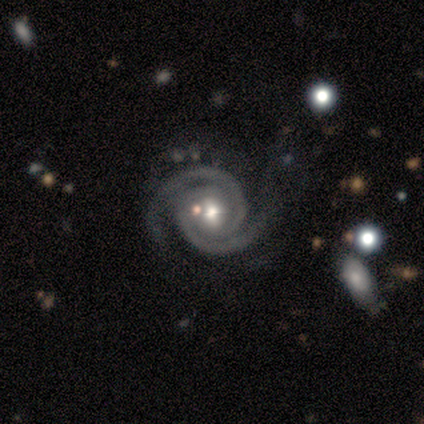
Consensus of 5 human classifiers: Q: Smooth or featured?
A: featured or disk (100%)
Q: Edge-on disk?
A: no (100%)
Q: Bar?
A: no (80%); runner-up: weak (20%)
Q: Spiral arms?
A: yes (100%)
Q: Spiral winding?
A: tight (80%); runner-up: medium (20%)
Q: Spiral arm count?
A: 2 (100%)
Q: Bulge size?
A: moderate (80%); runner-up: large (20%)
Q: Merging?
A: none (60%); runner-up: major disturbance (40%)